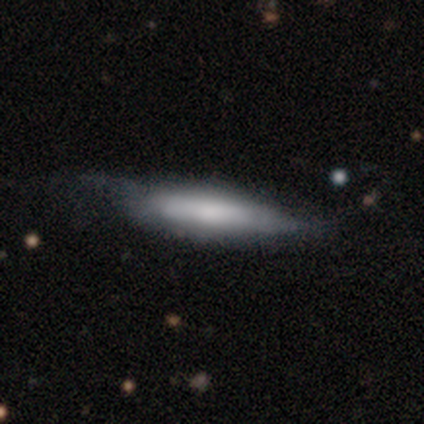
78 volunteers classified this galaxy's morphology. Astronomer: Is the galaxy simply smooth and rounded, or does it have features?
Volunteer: smooth — 65%.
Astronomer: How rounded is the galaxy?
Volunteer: cigar-shaped — 69%.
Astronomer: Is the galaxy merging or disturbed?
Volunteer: none — 23% (runner-up: minor disturbance, 18%).